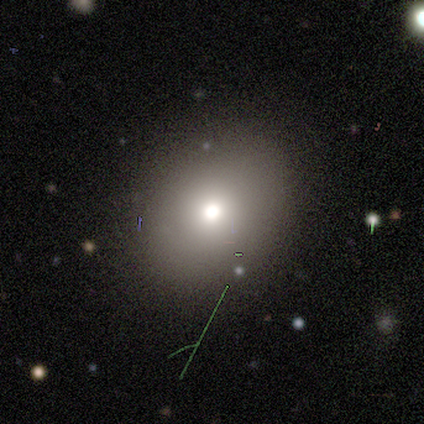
Q: Smooth or featured?
A: smooth (75%); runner-up: star or artifact (25%)
Q: How rounded?
A: round (67%); runner-up: in between (33%)
Q: Merging?
A: none (67%); runner-up: minor disturbance (33%)